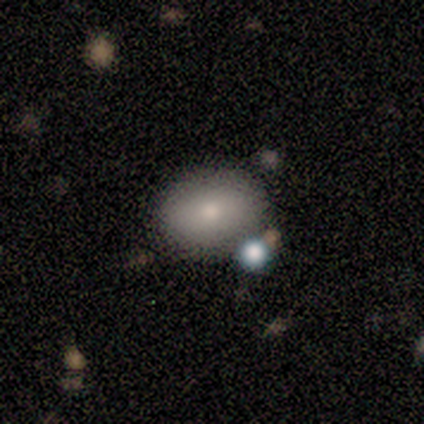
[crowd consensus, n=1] Smooth or featured?
  - smooth: 100% *
  - featured or disk: 0%
  - star or artifact: 0%
How rounded?
  - in between: 100% *
  - round: 0%
  - cigar-shaped: 0%
Merging?
  - none: 100% *
  - minor disturbance: 0%
  - major disturbance: 0%
  - merger: 0%